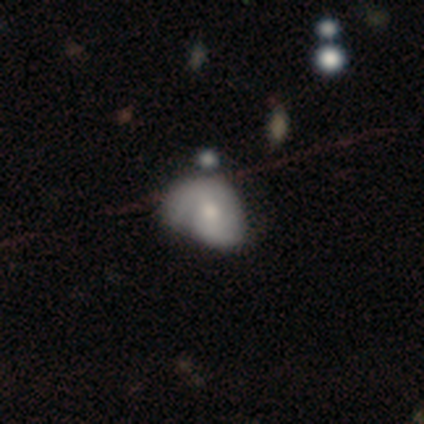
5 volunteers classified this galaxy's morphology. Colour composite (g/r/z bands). It shows a featured or disk galaxy (80%) with no bar (67%), 2 (100%) medium (50%, tied with loose) spiral arms (67%) and a small central bulge (67%). Merging: minor disturbance (80%).